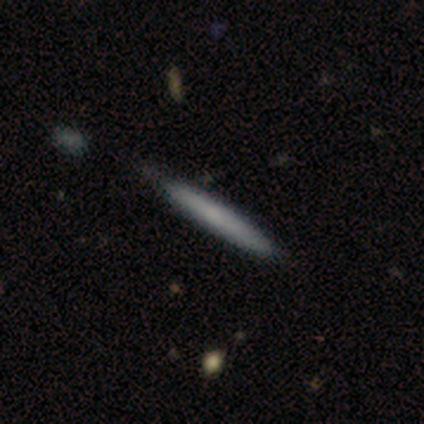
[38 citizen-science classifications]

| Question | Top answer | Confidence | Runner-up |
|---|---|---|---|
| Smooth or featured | smooth | 58% | featured or disk (42%) |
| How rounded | cigar-shaped | 91% | in between (9%) |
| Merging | none | 74% | minor disturbance (21%) |